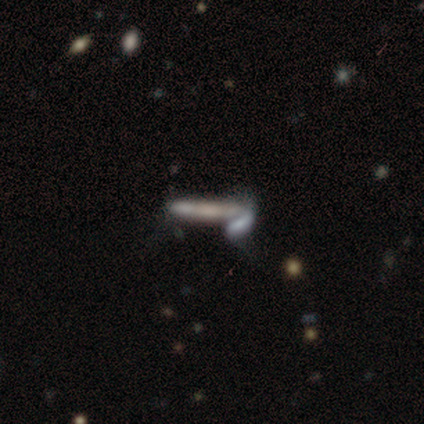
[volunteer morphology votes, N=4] Smooth or featured? 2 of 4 (50%, tied with featured or disk) said smooth. How rounded? 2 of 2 (100%) said cigar-shaped. Merging? 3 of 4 (75%) said merger.